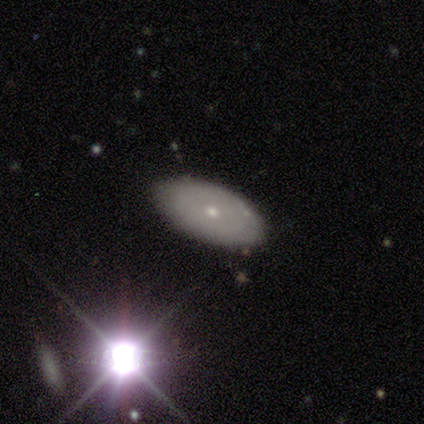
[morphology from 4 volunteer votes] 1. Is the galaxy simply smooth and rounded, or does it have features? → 75% smooth, 25% featured or disk, 0% star or artifact.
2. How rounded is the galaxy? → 100% in between, 0% round, 0% cigar-shaped.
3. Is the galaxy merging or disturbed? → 75% none, 25% minor disturbance, 0% major disturbance, 0% merger.